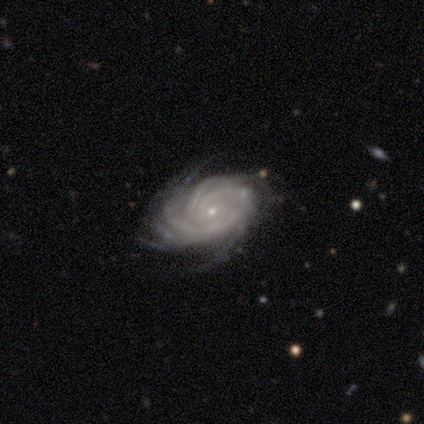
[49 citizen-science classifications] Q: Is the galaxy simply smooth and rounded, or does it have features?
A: featured or disk — 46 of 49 (94%).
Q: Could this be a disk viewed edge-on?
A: no — 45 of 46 (98%).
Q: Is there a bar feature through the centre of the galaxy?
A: no — 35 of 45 (78%).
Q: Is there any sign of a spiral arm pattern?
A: yes — 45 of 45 (100%).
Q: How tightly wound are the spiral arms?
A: tight — 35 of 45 (78%).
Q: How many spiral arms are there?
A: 4 — 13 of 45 (29%).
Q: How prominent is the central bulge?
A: small — 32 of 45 (71%).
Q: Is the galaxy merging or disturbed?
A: none — 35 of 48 (73%).